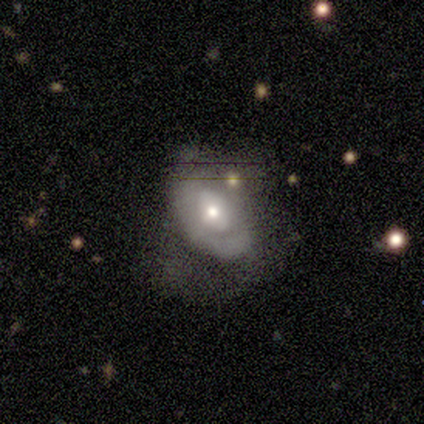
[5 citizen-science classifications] smooth-or-featured: featured or disk: 60% | smooth: 40% | star or artifact: 0%
  disk-edge-on: no: 100% | yes: 0%
    bar: no: 100% | strong: 0% | weak: 0%
    has-spiral-arms: no: 67% | yes: 33%
    bulge-size: small: 67% | moderate: 33% | dominant: 0% | large: 0% | none: 0%
  merging: none: 40% (tied) | minor disturbance: 40% (tied) | merger: 20% | major disturbance: 0%